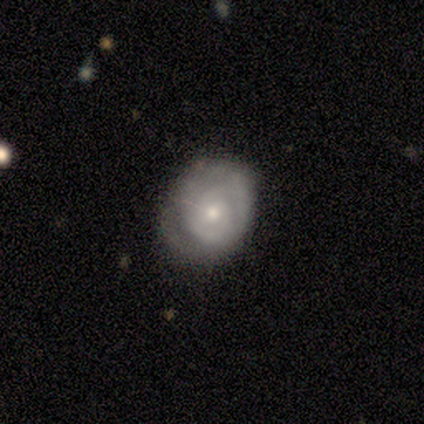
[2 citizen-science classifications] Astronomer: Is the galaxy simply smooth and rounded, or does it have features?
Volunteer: featured or disk — 100%.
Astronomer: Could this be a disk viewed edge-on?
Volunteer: no — 100%.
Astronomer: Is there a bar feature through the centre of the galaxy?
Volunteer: no — 100%.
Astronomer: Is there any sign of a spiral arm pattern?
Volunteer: yes — 50%, tied with no at 50%.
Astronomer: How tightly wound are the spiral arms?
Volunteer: tight — 100%.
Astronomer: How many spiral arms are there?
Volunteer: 3 — 100%.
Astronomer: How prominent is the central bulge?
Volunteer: small — 100%.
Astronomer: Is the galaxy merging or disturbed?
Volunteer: none — 100%.